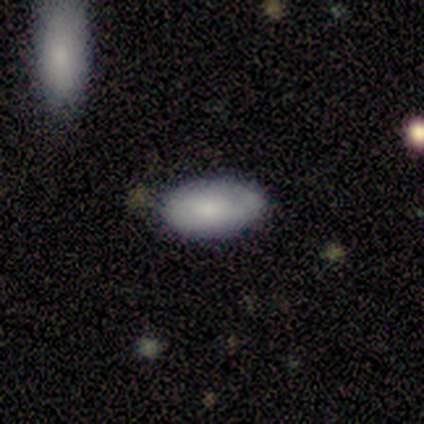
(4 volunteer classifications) smooth_or_featured: smooth (p=1.00)
how_rounded: in between (p=1.00)
merging: none (p=0.50) [tied with: minor disturbance p=0.50]